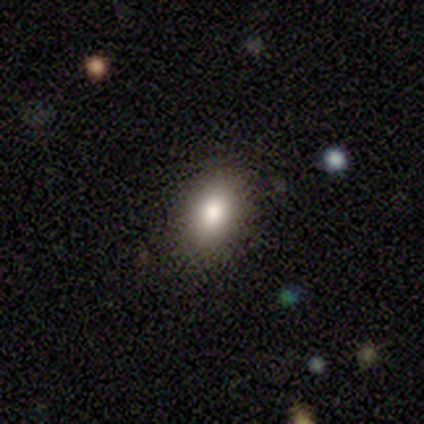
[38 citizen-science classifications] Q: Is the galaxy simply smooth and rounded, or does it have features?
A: smooth — 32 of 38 (84%).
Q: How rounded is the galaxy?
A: in between — 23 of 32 (72%).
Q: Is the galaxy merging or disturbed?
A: none — 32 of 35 (91%).